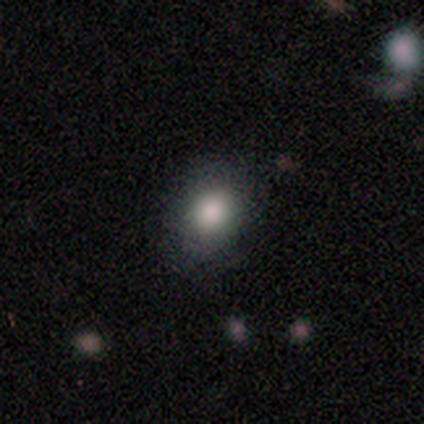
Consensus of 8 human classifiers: Q: Smooth or featured?
A: smooth (75%); runner-up: featured or disk (12%)
Q: How rounded?
A: in between (83%); runner-up: round (17%)
Q: Merging?
A: none (86%); runner-up: minor disturbance (14%)